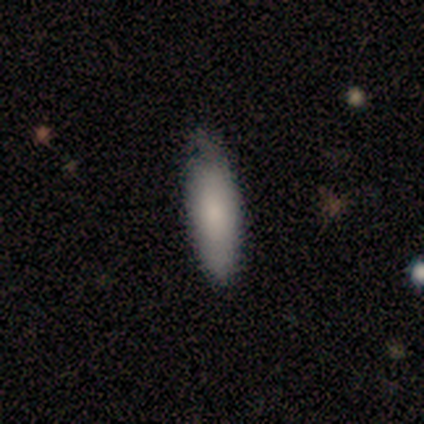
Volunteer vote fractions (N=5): This appears to be a smooth galaxy with no disk features (60%) that is in between round and cigar-shaped (67%). Merging: none (100%).